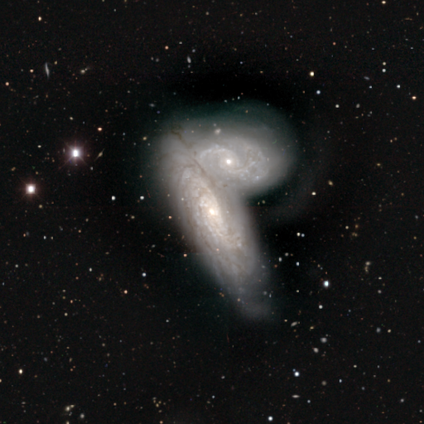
Smooth or featured? featured or disk (60%)
Edge-on disk? no (100%)
Bar? no (67%)
Spiral arms? yes (100%)
Spiral winding? tight (67%)
Spiral arm count? more than 4 (67%)
Bulge size? small (100%)
Merging? merger (80%)